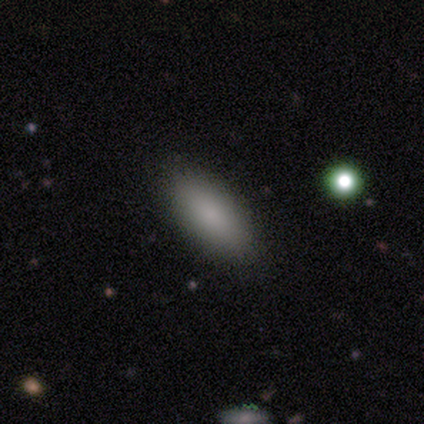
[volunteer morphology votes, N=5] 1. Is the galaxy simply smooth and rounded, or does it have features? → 100% smooth, 0% featured or disk, 0% star or artifact.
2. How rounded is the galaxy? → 100% in between, 0% round, 0% cigar-shaped.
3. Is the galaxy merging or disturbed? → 100% none, 0% minor disturbance, 0% major disturbance, 0% merger.